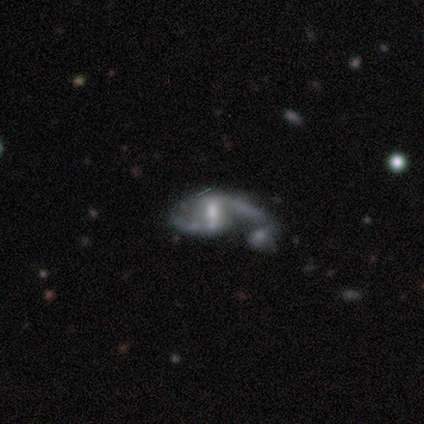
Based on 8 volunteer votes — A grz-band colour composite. It shows a featured or disk galaxy (88%) with a weak bar (43%), 1 (43%, tied with 2) loose (71%) spiral arms (100%) and a moderate central bulge (43%, tied with small). Merging: none (50%, tied with major disturbance).